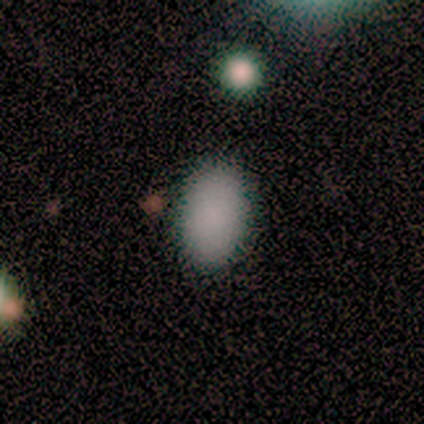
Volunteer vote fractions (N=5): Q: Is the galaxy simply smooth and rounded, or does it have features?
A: smooth — 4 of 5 (80%).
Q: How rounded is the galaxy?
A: in between — 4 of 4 (100%).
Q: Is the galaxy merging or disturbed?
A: none — 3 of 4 (75%).